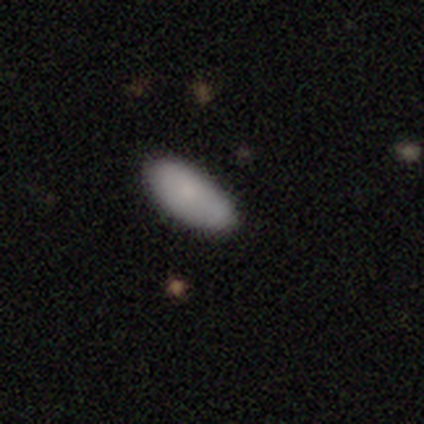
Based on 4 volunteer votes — smooth-or-featured: smooth: 75% | featured or disk: 25% | star or artifact: 0%
  how-rounded: in between: 100% | round: 0% | cigar-shaped: 0%
  merging: none: 100% | minor disturbance: 0% | major disturbance: 0% | merger: 0%